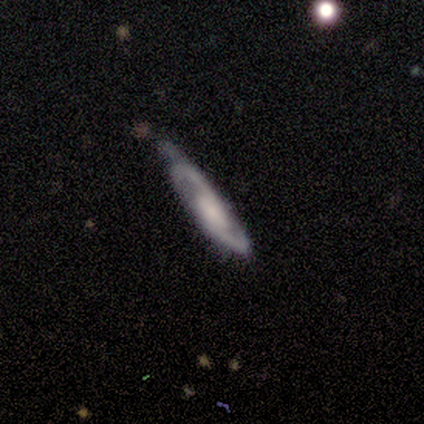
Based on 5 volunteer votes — Smooth or featured?
  - featured or disk: 100% *
  - smooth: 0%
  - star or artifact: 0%
Edge-on disk?
  - no: 100% *
  - yes: 0%
Bar?
  - no: 100% *
  - strong: 0%
  - weak: 0%
Spiral arms?
  - yes: 80% *
  - no: 20%
Spiral winding?
  - medium: 50% *
  - tight: 25%
  - loose: 25%
Spiral arm count?
  - 2: 75% *
  - 3: 25%
  - 1: 0%
  - 4: 0%
  - more than 4: 0%
  - can't tell: 0%
Bulge size?
  - small: 60% *
  - moderate: 20%
  - none: 20%
  - dominant: 0%
  - large: 0%
Merging?
  - none: 60% *
  - major disturbance: 40%
  - minor disturbance: 0%
  - merger: 0%